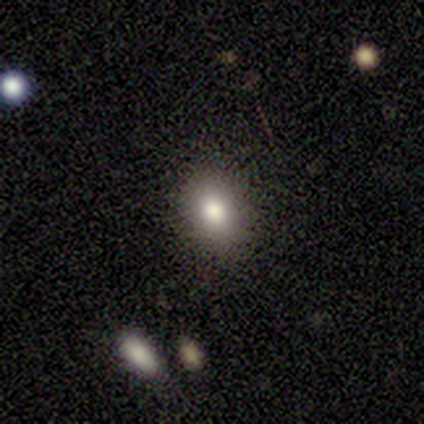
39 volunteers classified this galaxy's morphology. A smooth galaxy with no disk features (74%) that is in between round and cigar-shaped (52%). Merging: none (85%).